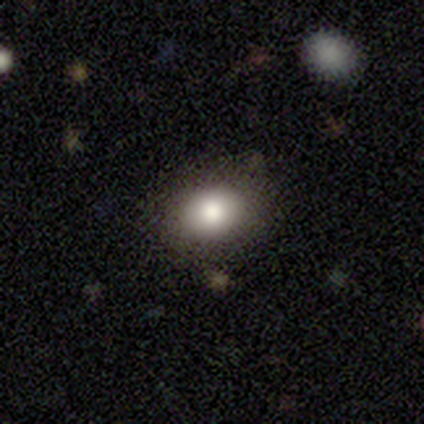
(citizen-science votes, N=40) This is clearly a smooth galaxy (82%). How rounded: possibly in between (55%). Merging: clearly none (89%).